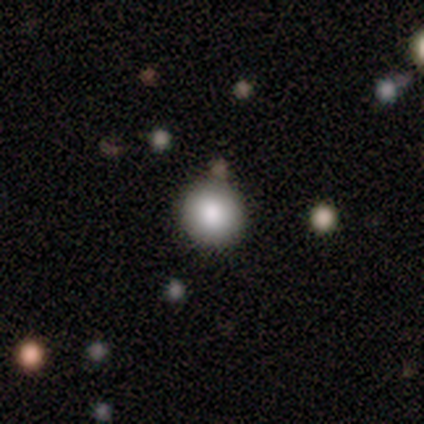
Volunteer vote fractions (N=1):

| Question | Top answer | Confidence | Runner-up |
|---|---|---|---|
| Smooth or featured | featured or disk | 100% | — |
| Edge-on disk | no | 100% | — |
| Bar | no | 100% | — |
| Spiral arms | no | 100% | — |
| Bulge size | large | 100% | — |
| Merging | none | 100% | — |